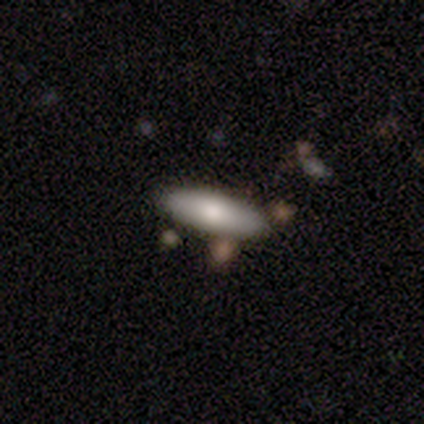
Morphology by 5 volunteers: smooth-or-featured: smooth: 80% | star or artifact: 20% | featured or disk: 0%
  how-rounded: in between: 50% (tied) | cigar-shaped: 50% (tied) | round: 0%
  merging: none: 100% | minor disturbance: 0% | major disturbance: 0% | merger: 0%